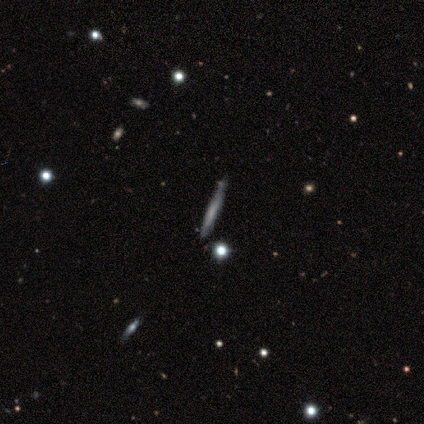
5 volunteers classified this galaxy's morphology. This is clearly a featured or disk galaxy (80%). It is clearly viewed edge-on (100%). Edge-on bulge: likely none (75%). Merging: clearly none (100%).